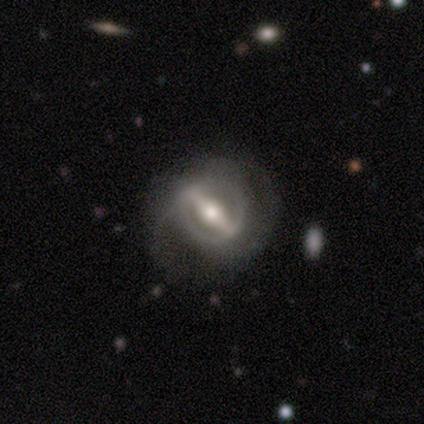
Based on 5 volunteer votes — A featured or disk galaxy (100%) viewed edge-on (60%) with a rounded central bulge (67%).

Vote fractions:
- Smooth or featured? featured or disk: 100% / smooth: 0% / star or artifact: 0%
- Edge-on disk? yes: 60% / no: 40%
- Edge-on bulge? rounded: 67% / boxy: 33% / none: 0%
- Merging? none: 60% / minor disturbance: 20% / major disturbance: 20% / merger: 0%